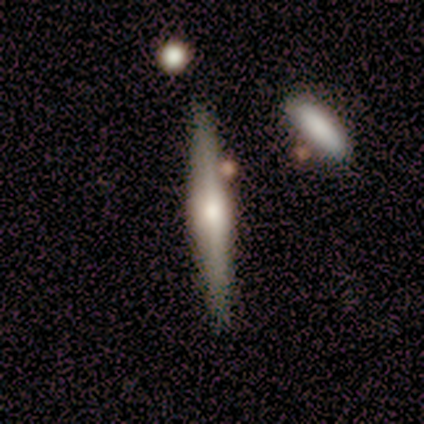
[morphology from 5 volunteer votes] smooth-or-featured: featured or disk: 60% | smooth: 20% | star or artifact: 20%
  disk-edge-on: yes: 100% | no: 0%
    edge-on-bulge: rounded: 67% | none: 33% | boxy: 0%
  merging: none: 100% | minor disturbance: 0% | major disturbance: 0% | merger: 0%